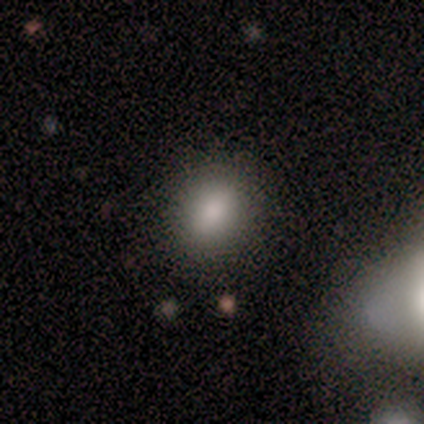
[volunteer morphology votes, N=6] Smooth or featured? smooth (67%)
How rounded? round (75%)
Merging? none (100%)